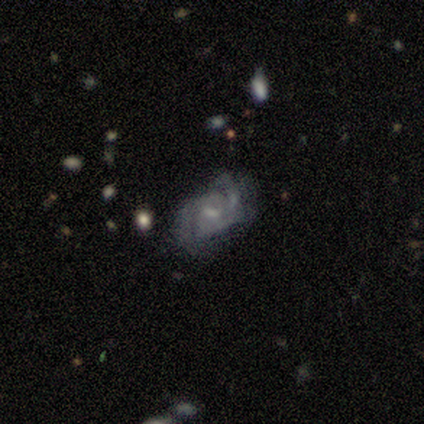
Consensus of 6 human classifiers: Smooth or featured? 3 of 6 (50%) said featured or disk. Edge-on disk? 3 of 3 (100%) said no. Bar? 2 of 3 (67%) said no. Spiral arms? 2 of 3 (67%) said yes. Spiral winding? 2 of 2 (100%) said loose. Spiral arm count? 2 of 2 (100%) said 2. Bulge size? 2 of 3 (67%) said none. Merging? 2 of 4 (50%) said none.